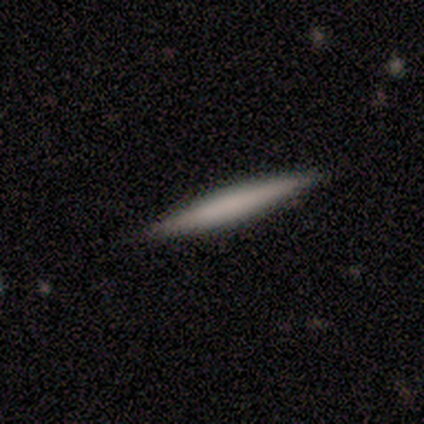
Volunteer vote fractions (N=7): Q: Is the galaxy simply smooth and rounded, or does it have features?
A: smooth — 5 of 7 (71%).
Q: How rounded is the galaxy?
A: cigar-shaped — 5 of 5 (100%).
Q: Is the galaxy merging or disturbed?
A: none — 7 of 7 (100%).